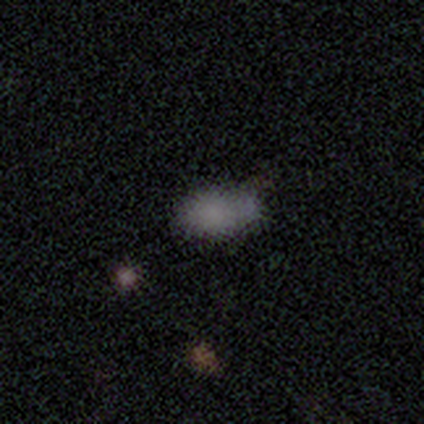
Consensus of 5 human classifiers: Q: Smooth or featured?
A: smooth (80%); runner-up: star or artifact (20%)
Q: How rounded?
A: in between (100%)
Q: Merging?
A: none (75%); runner-up: minor disturbance (25%)